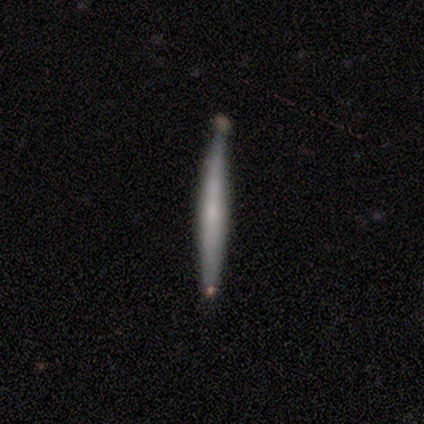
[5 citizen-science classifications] A smooth galaxy with no disk features (80%) that is cigar-shaped (100%).

Vote fractions:
- Smooth or featured? smooth: 80% / featured or disk: 20% / star or artifact: 0%
- How rounded? cigar-shaped: 100% / round: 0% / in between: 0%
- Merging? none: 100% / minor disturbance: 0% / major disturbance: 0% / merger: 0%